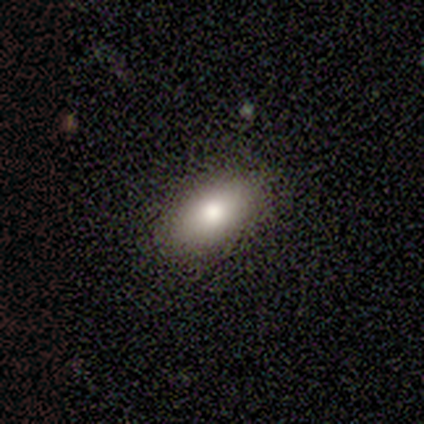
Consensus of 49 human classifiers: Smooth or featured: smooth — 76% (featured or disk — 12%)
How rounded: in between — 89% (cigar-shaped — 8%)
Merging: none — 88% (minor disturbance — 9%)